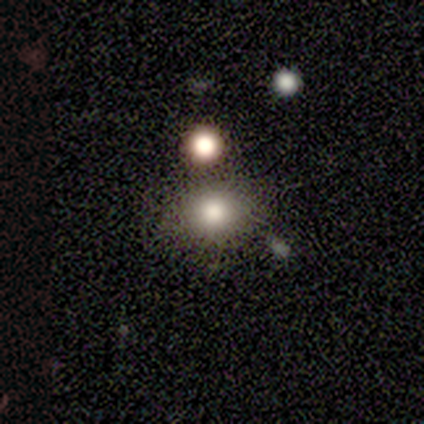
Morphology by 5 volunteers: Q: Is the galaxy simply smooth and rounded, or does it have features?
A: smooth — 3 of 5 (60%).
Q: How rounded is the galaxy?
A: in between — 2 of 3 (67%).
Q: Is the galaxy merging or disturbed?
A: none — 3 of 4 (75%).